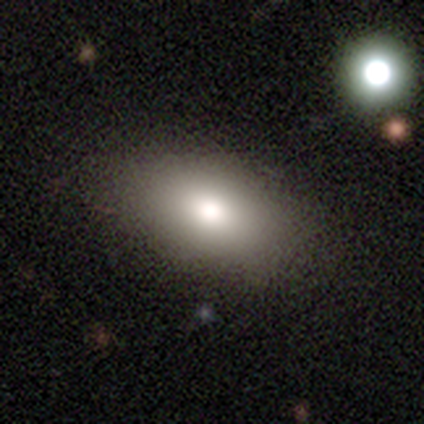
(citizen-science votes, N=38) Smooth or featured?
  - smooth: 74% *
  - featured or disk: 16%
  - star or artifact: 11%
How rounded?
  - in between: 89% *
  - round: 11%
  - cigar-shaped: 0%
Merging?
  - none: 71% *
  - minor disturbance: 3%
  - major disturbance: 0%
  - merger: 0%